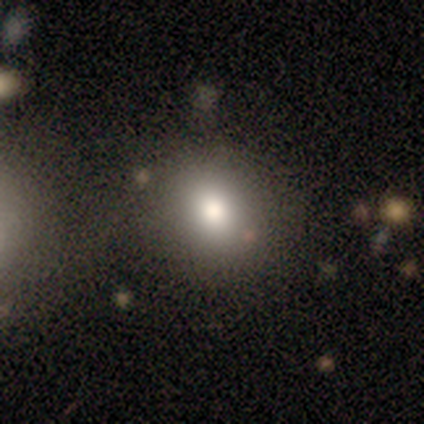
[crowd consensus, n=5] This is clearly a smooth galaxy (100%). How rounded: clearly round (100%). Merging: clearly none (80%).